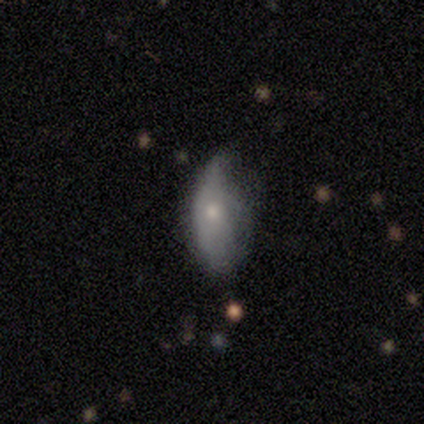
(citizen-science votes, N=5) A smooth galaxy with no disk features (100%) that is in between round and cigar-shaped (80%). Merging: major disturbance (60%).